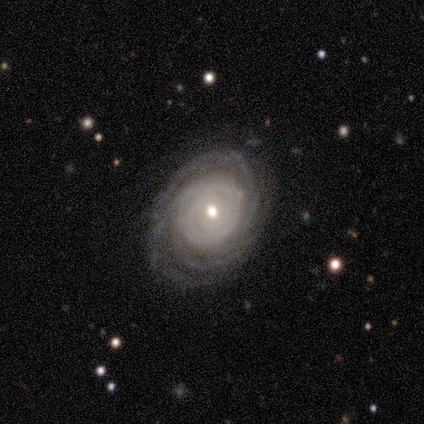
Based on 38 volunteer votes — Smooth or featured?
  - featured or disk: 95% *
  - smooth: 5%
  - star or artifact: 0%
Edge-on disk?
  - no: 89% *
  - yes: 11%
Bar?
  - no: 59% *
  - weak: 38%
  - strong: 3%
Spiral arms?
  - yes: 100% *
  - no: 0%
Spiral winding?
  - tight: 84% *
  - medium: 16%
  - loose: 0%
Spiral arm count?
  - can't tell: 31% *
  - more than 4: 28%
  - 3: 16%
  - 4: 16%
  - 2: 9%
  - 1: 0%
Bulge size?
  - moderate: 53% *
  - small: 41%
  - dominant: 3%
  - large: 3%
  - none: 0%
Merging?
  - none: 76% *
  - minor disturbance: 18%
  - major disturbance: 3%
  - merger: 3%